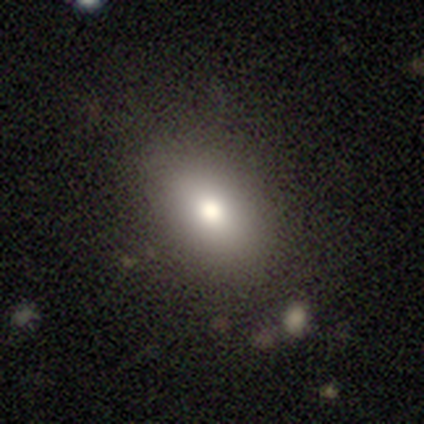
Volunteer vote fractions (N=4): Overall: smooth (75%). How rounded: round (100%). Merging: none (75%).